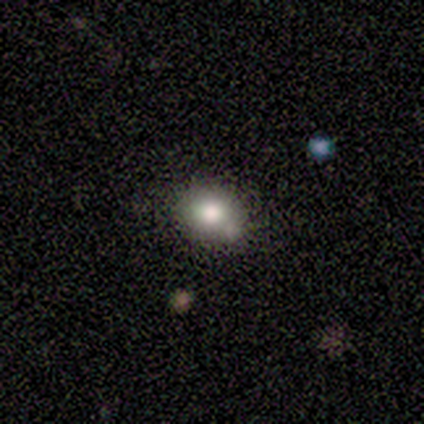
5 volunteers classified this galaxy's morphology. A smooth galaxy with no disk features (60%) that is round (67%).

Vote fractions:
- Smooth or featured? smooth: 60% / star or artifact: 40% / featured or disk: 0%
- How rounded? round: 67% / in between: 33% / cigar-shaped: 0%
- Merging? none: 67% / merger: 33% / minor disturbance: 0% / major disturbance: 0%